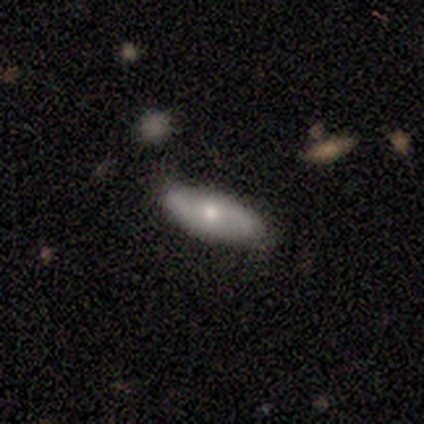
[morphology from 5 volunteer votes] smooth_or_featured: smooth (p=0.60) [alt: featured or disk p=0.40]
how_rounded: in between (p=1.00)
merging: none (p=1.00)